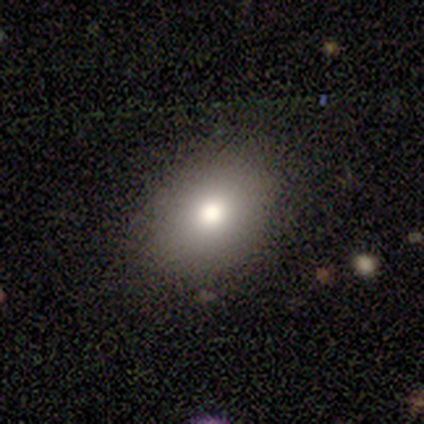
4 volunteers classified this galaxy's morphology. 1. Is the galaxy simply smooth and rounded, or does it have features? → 100% smooth, 0% featured or disk, 0% star or artifact.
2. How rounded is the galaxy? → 50% round (tied), 50% in between (tied), 0% cigar-shaped.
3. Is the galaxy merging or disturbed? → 100% none, 0% minor disturbance, 0% major disturbance, 0% merger.